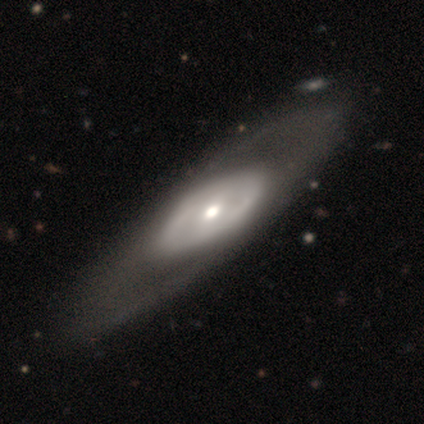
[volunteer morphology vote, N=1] This is clearly a featured or disk galaxy (100%). It is clearly not viewed edge-on (100%). Bar: clearly weak (100%). Spiral arm pattern: clearly no (100%). Central bulge: clearly small (100%). Merging: clearly none (100%).